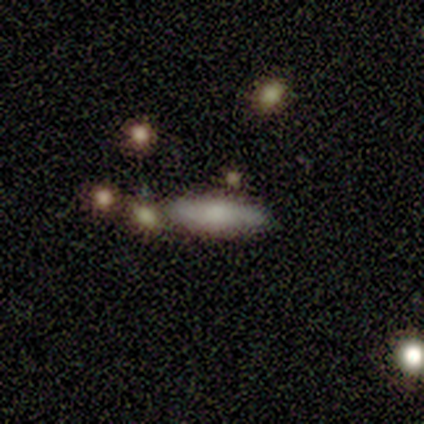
Smooth or featured: smooth — 60% (featured or disk — 40%)
How rounded: in between — 67% (cigar-shaped — 33%)
Merging: none — 80% (merger — 20%)